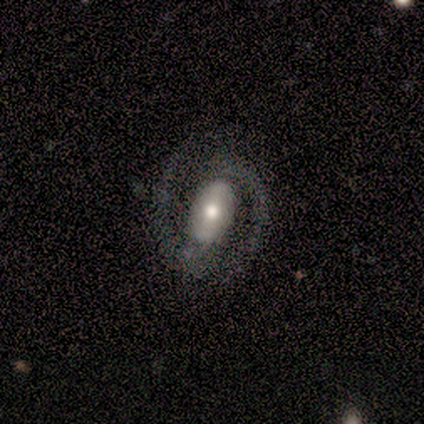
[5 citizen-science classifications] This appears to be a featured or disk galaxy (100%) with a strong bar (50%), 2 (100%) tight (50%, tied with medium) spiral arms (100%) and a moderate central bulge (75%). Merging: none (80%).